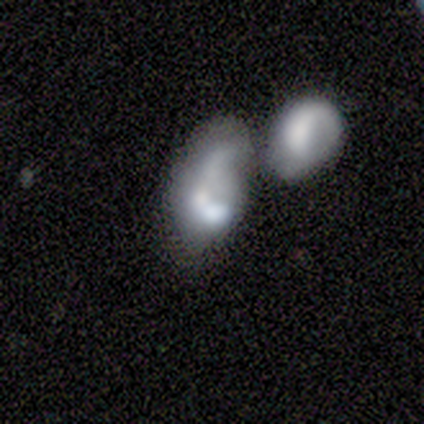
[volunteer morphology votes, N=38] Smooth or featured? smooth (66%)
How rounded? in between (84%)
Merging? merger (70%)